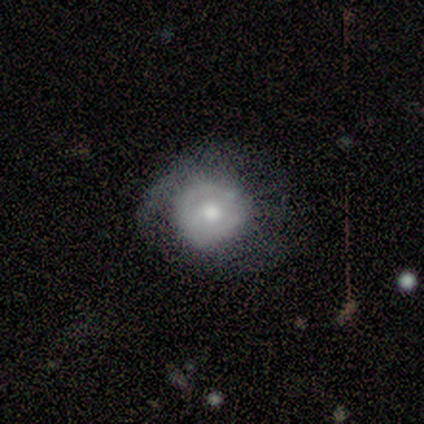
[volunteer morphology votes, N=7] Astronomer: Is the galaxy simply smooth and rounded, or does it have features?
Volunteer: featured or disk — 71%.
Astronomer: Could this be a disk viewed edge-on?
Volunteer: no — 100%.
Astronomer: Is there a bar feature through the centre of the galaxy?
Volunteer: no — 80%.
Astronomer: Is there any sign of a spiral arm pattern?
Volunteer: no — 80%.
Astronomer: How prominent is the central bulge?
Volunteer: moderate — 80%.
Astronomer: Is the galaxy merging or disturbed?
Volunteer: none — 57%.